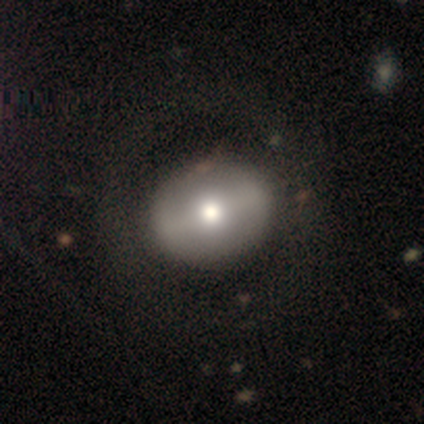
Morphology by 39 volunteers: Smooth or featured: smooth — 67% (featured or disk — 33%)
How rounded: round — 54% (in between — 46%)
Merging: none — 62% (minor disturbance — 3%)